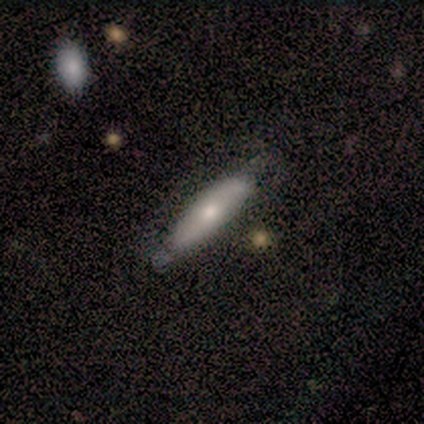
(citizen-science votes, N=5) This is likely a featured or disk galaxy (60%). It is likely not viewed edge-on (67%). Bar: clearly no (100%). Spiral arm pattern: possibly yes (50%, tied with no). Spiral arm count: clearly 2 (100%). Spiral winding: clearly medium (100%). Central bulge: clearly moderate (100%). Merging: likely none (75%).